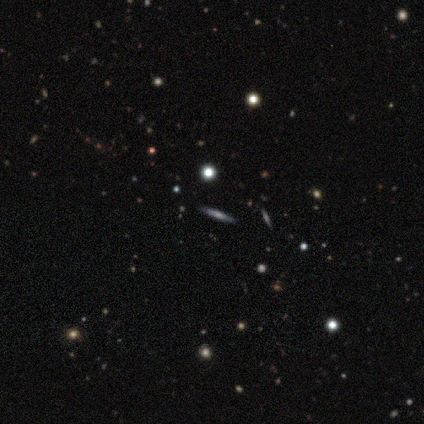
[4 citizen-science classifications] smooth 50%, featured or disk 25%, star or artifact 25%. Down the decision tree: how rounded — cigar-shaped (100%); merging — none (67%).